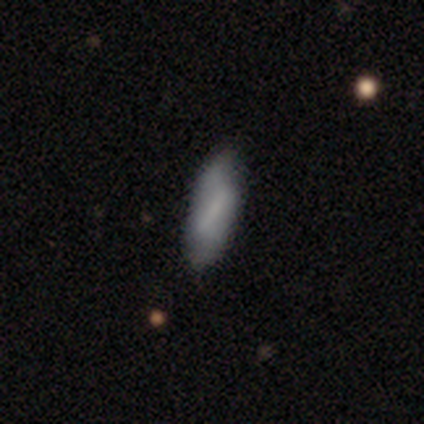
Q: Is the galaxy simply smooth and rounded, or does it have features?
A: smooth — 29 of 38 (76%).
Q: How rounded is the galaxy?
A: in between — 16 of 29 (55%).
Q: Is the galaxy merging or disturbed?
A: none — 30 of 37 (81%).